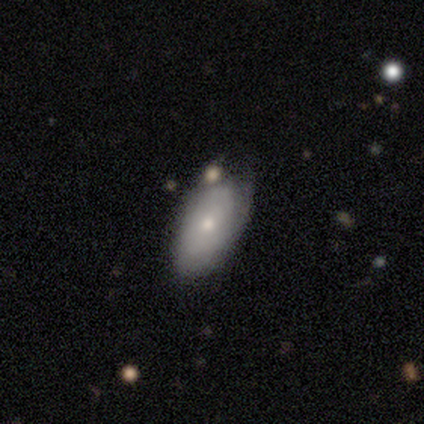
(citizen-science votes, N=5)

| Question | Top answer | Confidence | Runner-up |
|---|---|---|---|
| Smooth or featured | smooth | 80% | featured or disk (20%) |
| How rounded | in between | 100% | — |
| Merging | none | 40% | tied: minor disturbance (40%) |